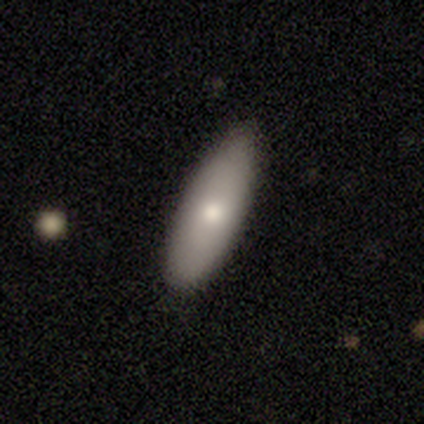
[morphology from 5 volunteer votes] Volunteers were most divided on "how rounded" (2-way tie): in between: 50%, cigar-shaped: 50%, round: 0%. More confident: smooth or featured — smooth (80%); merging — none (80%).